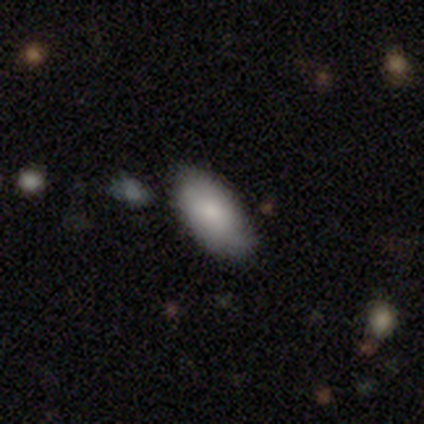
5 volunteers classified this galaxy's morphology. Smooth or featured? smooth (80%)
How rounded? in between (100%)
Merging? none (60%)